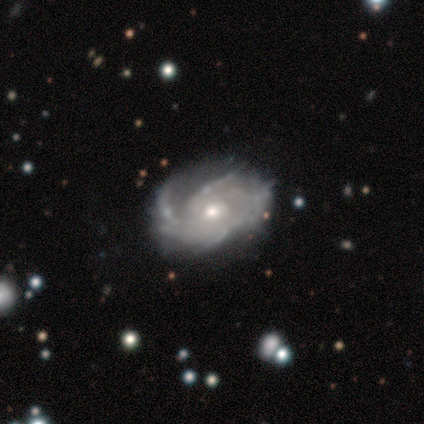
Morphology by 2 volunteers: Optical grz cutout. It shows a featured or disk galaxy (100%) with a weak bar (50%, tied with no), more than 4 (50%, tied with can't tell) tight (50%, tied with medium) spiral arms (100%) and a moderate central bulge (100%). Merging: none (50%, tied with merger).